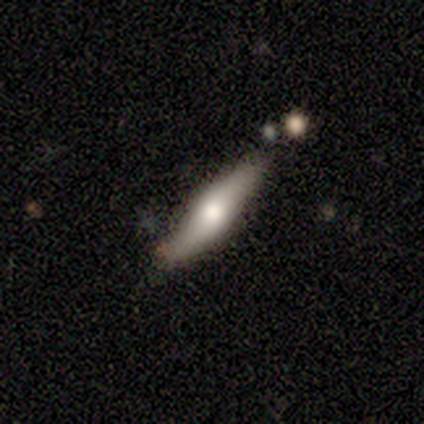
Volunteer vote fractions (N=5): A smooth galaxy with no disk features (80%) that is cigar-shaped (100%). Merging: none (80%).